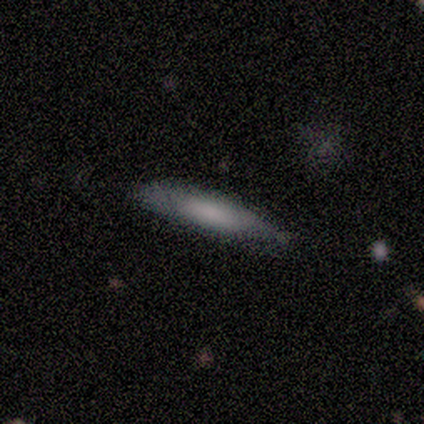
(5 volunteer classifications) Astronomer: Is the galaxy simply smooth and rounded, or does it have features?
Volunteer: smooth — 80%.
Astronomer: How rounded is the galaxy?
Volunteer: in between — 50%, tied with cigar-shaped at 50%.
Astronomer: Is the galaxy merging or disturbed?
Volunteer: none — 60% (runner-up: minor disturbance, 40%).